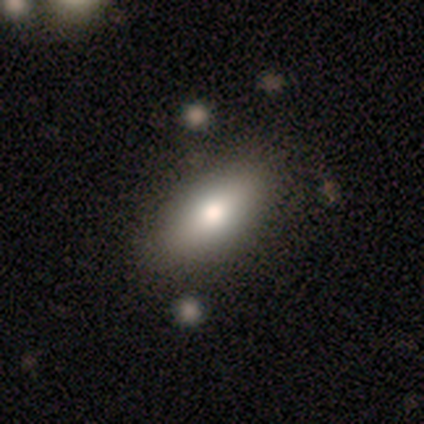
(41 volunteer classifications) Overall: smooth (76%). How rounded: in between (97%). Merging: none (88%).